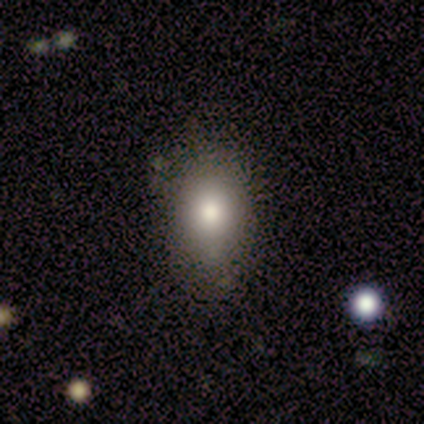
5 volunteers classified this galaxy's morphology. A smooth galaxy with no disk features (100%) that is in between round and cigar-shaped (80%). Merging: none (100%).